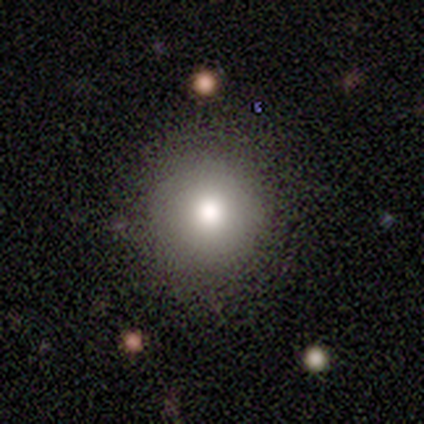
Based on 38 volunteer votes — Smooth or featured? smooth (76%)
How rounded? round (93%)
Merging? none (85%)